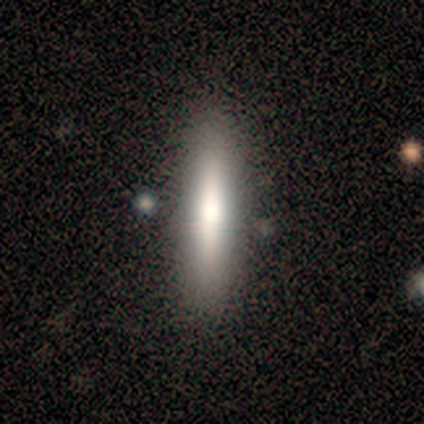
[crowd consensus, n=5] Smooth or featured: smooth — 60% (featured or disk — 40%)
How rounded: cigar-shaped — 100%
Merging: none — 100%